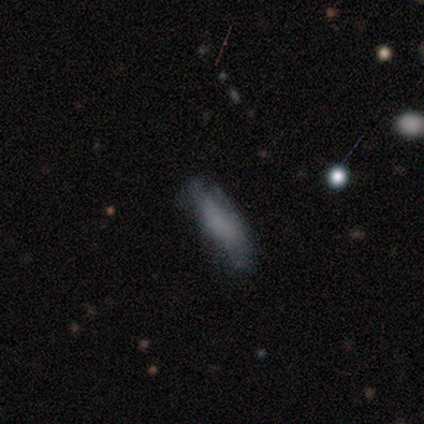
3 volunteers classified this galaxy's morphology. Smooth or featured: smooth — 100%
How rounded: cigar-shaped — 67% (in between — 33%)
Merging: minor disturbance — 67% (none — 33%)